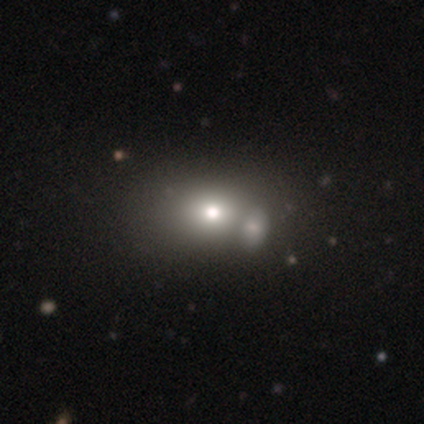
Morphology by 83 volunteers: Smooth or featured?
  - smooth: 64% *
  - star or artifact: 19%
  - featured or disk: 17%
How rounded?
  - in between: 55% *
  - round: 43%
  - cigar-shaped: 2%
Merging?
  - merger: 58% *
  - none: 24%
  - minor disturbance: 1%
  - major disturbance: 1%